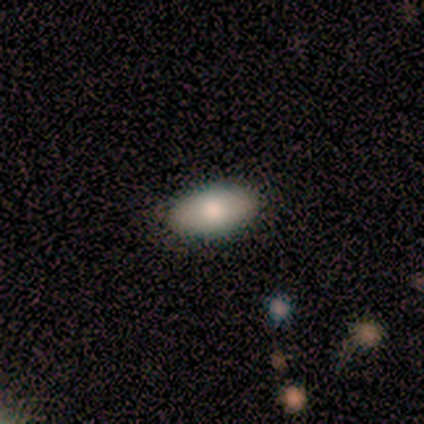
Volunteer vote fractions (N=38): smooth_or_featured: smooth (p=0.84) [alt: featured or disk p=0.16]
how_rounded: in between (p=0.97) [alt: round p=0.03]
merging: none (p=0.92) [alt: minor disturbance p=0.08]